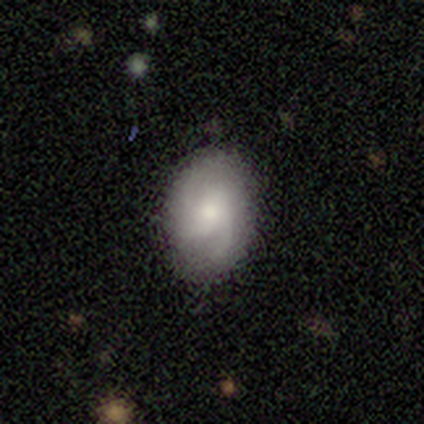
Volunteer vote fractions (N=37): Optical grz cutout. It shows a smooth galaxy with no disk features (57%) that is in between round and cigar-shaped (95%). Merging: none (78%).